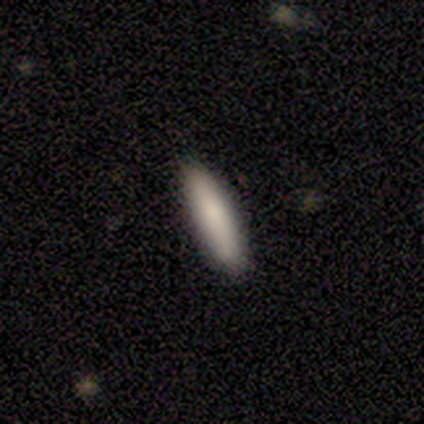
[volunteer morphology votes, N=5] Smooth or featured: smooth — 60% (featured or disk — 40%)
How rounded: cigar-shaped — 100%
Merging: none — 100%